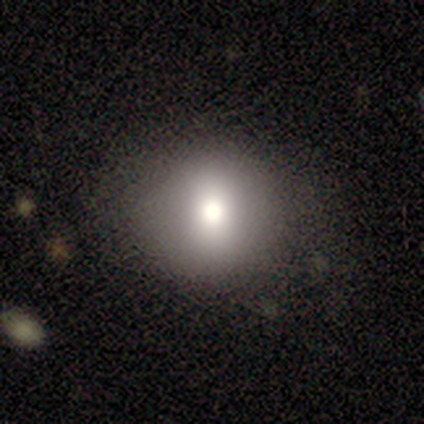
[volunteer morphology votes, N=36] Smooth or featured?
  - smooth: 72% *
  - featured or disk: 17%
  - star or artifact: 11%
How rounded?
  - round: 88% *
  - in between: 8%
  - cigar-shaped: 4%
Merging?
  - none: 88% *
  - minor disturbance: 6%
  - major disturbance: 6%
  - merger: 0%